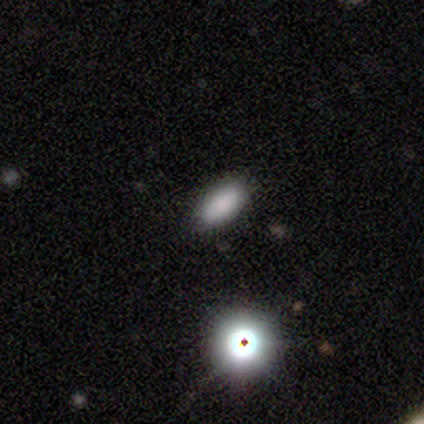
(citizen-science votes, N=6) This is clearly a smooth galaxy (83%). How rounded: likely in between (60%). Merging: clearly none (100%).